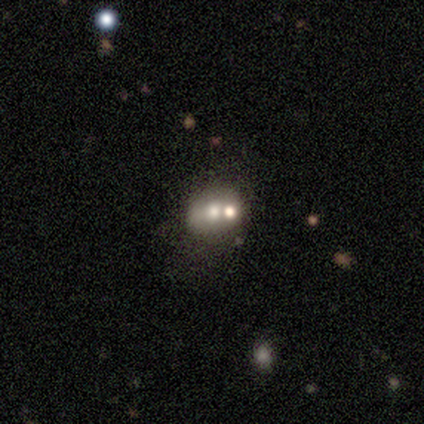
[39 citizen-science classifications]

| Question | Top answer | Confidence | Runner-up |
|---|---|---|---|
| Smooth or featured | smooth | 62% | featured or disk (21%) |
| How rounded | round | 54% | in between (46%) |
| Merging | merger | 44% | none (38%) |